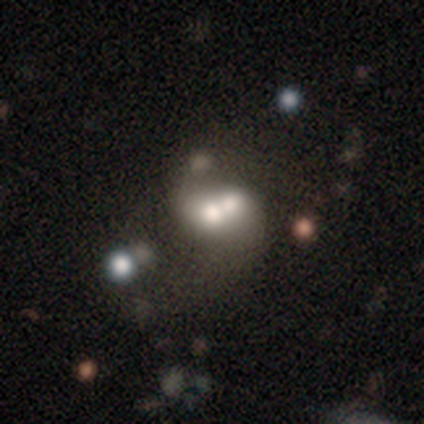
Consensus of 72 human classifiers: Volunteers were most divided on "smooth or featured": featured or disk: 46%, smooth: 40%, star or artifact: 14%. Remaining: edge-on disk — no (100%); bar — no (88%); merging — merger (79%); spiral arms — no (79%); bulge size — moderate (39%).